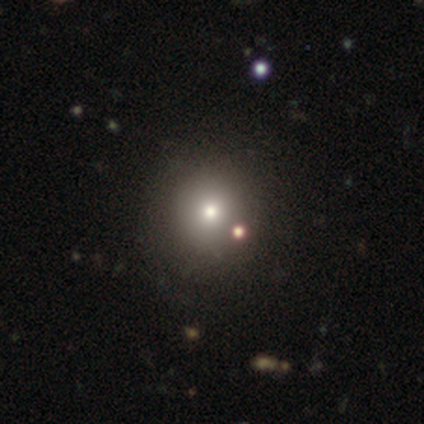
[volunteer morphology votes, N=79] smooth-or-featured: smooth: 71% | star or artifact: 20% | featured or disk: 9%
  how-rounded: round: 93% | in between: 7% | cigar-shaped: 0%
  merging: none: 41% | merger: 8% | minor disturbance: 3% | major disturbance: 2%